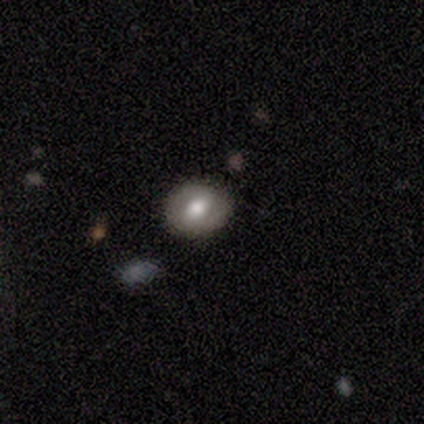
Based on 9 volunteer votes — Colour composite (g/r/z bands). It shows a smooth galaxy with no disk features (56%) that is in between round and cigar-shaped (60%). Merging: none (67%).